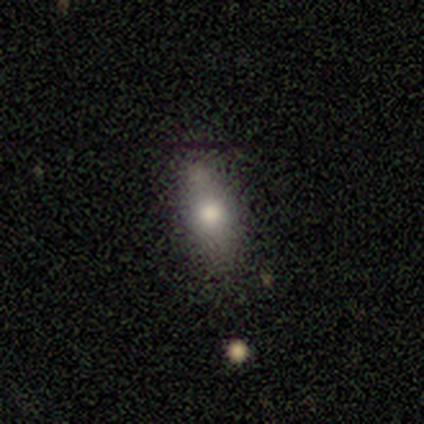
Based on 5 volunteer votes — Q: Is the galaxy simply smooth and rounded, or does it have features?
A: smooth — 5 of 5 (100%).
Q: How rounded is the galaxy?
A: in between — 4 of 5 (80%).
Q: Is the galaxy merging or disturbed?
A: none — 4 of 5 (80%).